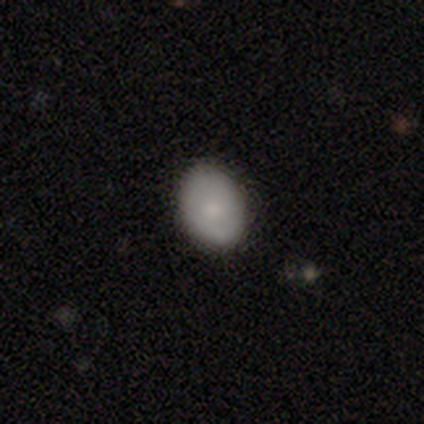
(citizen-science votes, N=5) Overall: smooth (80%). How rounded: in between (100%). Merging: none (100%).